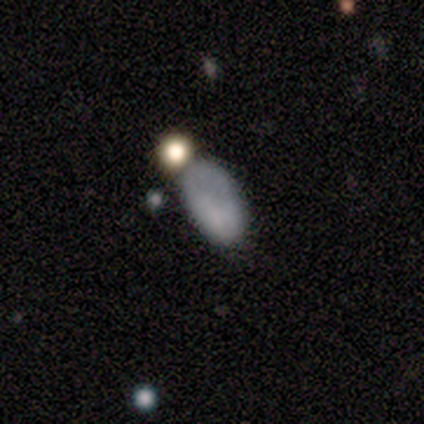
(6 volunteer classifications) Smooth or featured: smooth — 67% (featured or disk — 17%)
How rounded: in between — 100%
Merging: none — 60% (minor disturbance — 40%)